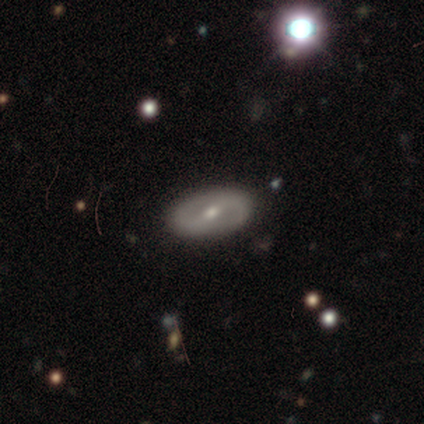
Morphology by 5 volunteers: featured or disk 100%, smooth 0%, star or artifact 0%. Down the decision tree: edge-on disk — no (100%); bar — strong (60%); spiral arms — yes (100%); spiral arm count — 2 (100%); spiral winding — loose (80%); bulge size — moderate (100%); merging — none (100%).